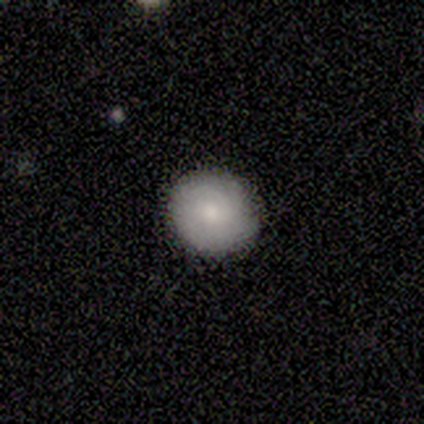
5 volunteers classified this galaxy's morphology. Smooth or featured: smooth — 60% (featured or disk — 20%)
How rounded: round — 100%
Merging: none — 75% (minor disturbance — 25%)